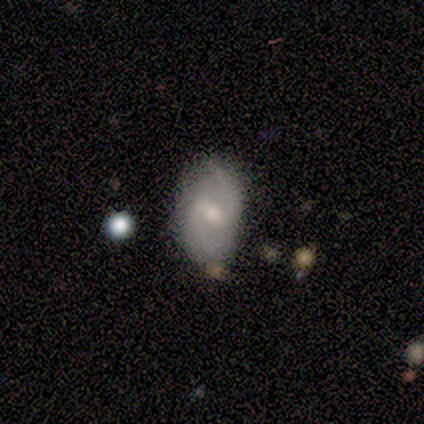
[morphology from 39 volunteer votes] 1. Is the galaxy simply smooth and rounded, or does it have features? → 64% featured or disk, 33% smooth, 3% star or artifact.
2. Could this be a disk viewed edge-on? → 96% no, 4% yes.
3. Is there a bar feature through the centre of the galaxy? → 67% weak, 21% strong, 12% no.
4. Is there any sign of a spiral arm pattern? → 88% yes, 12% no.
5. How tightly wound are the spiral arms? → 57% medium, 24% tight, 19% loose.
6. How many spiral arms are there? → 100% 2, 0% 1, 0% 3, 0% 4, 0% more than 4, 0% can't tell.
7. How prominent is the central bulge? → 54% moderate, 42% small, 4% large, 0% dominant, 0% none.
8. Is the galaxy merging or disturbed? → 76% none, 16% minor disturbance, 5% merger, 3% major disturbance.